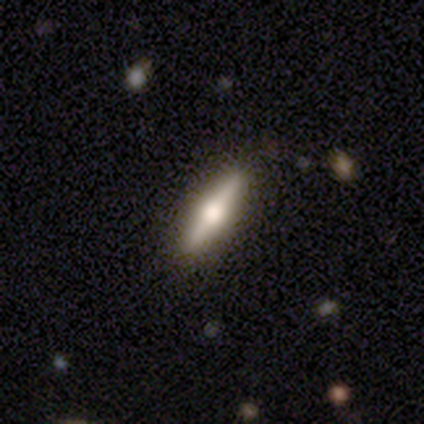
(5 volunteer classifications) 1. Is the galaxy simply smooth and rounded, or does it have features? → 60% featured or disk, 40% smooth, 0% star or artifact.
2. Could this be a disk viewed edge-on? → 100% yes, 0% no.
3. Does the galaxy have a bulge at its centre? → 100% rounded, 0% boxy, 0% none.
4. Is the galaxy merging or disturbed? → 60% none, 40% minor disturbance, 0% major disturbance, 0% merger.